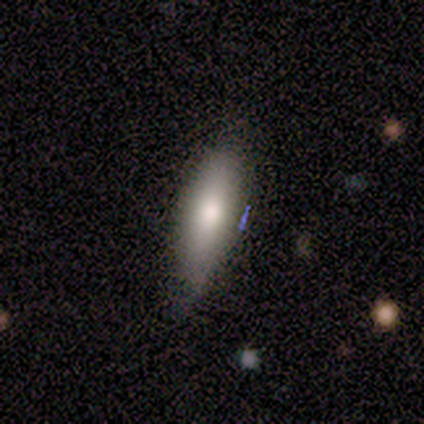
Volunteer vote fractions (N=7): Overall: smooth (86%). How rounded: cigar-shaped (83%). Merging: none (57%; minor disturbance 29%).